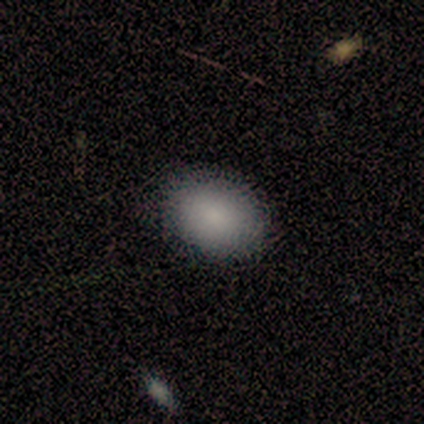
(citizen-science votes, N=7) A smooth galaxy with no disk features (100%) that is in between round and cigar-shaped (86%).

Vote fractions:
- Smooth or featured? smooth: 100% / featured or disk: 0% / star or artifact: 0%
- How rounded? in between: 86% / round: 14% / cigar-shaped: 0%
- Merging? none: 86% / minor disturbance: 14% / major disturbance: 0% / merger: 0%